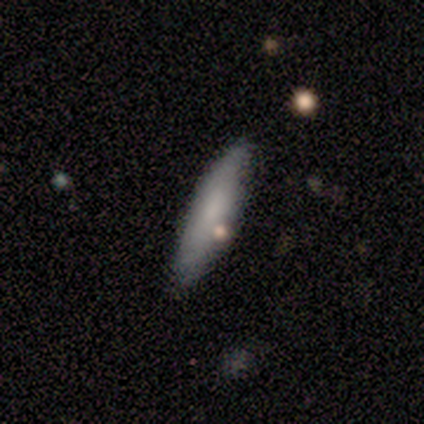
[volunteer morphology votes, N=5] Smooth or featured? smooth (100%)
How rounded? cigar-shaped (80%)
Merging? none (60%)